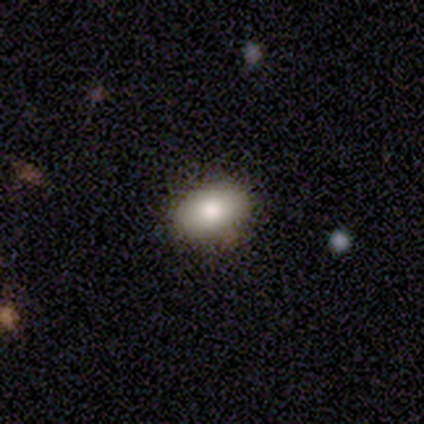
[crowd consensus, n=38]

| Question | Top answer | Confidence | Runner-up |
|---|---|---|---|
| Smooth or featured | smooth | 89% | featured or disk (5%) |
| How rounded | in between | 82% | round (15%) |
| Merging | none | 81% | minor disturbance (17%) |